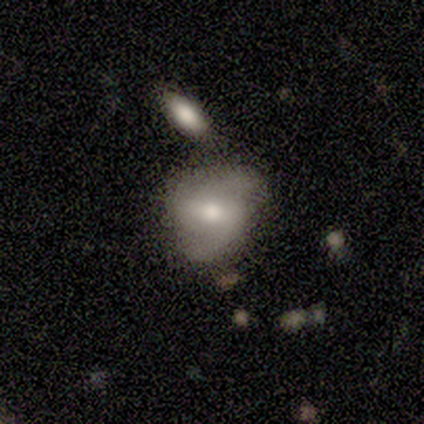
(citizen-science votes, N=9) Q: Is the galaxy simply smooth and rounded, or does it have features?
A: smooth — 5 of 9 (56%).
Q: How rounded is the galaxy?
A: in between — 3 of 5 (60%).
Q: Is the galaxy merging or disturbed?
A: none — 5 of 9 (56%).